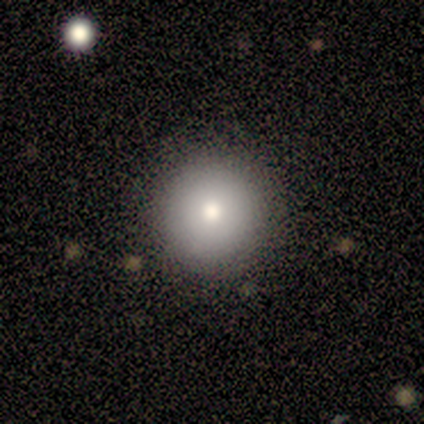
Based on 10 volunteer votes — Smooth or featured? smooth (80%)
How rounded? round (100%)
Merging? none (100%)